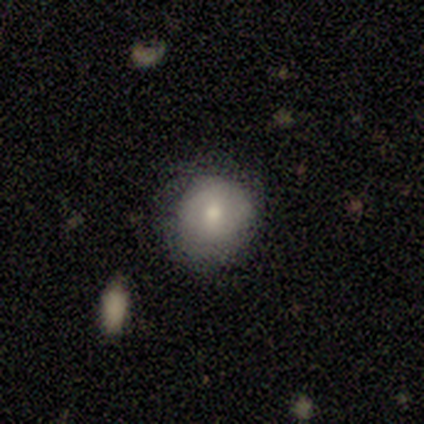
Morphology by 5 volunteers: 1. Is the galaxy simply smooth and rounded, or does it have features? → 80% smooth, 20% featured or disk, 0% star or artifact.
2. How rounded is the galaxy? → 100% round, 0% in between, 0% cigar-shaped.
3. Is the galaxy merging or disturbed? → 40% none (tied), 40% minor disturbance (tied), 20% major disturbance, 0% merger.